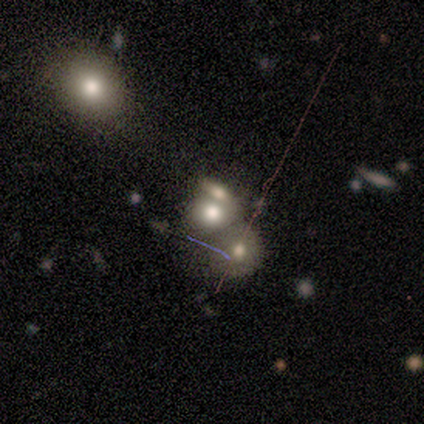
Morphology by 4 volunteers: smooth_or_featured: smooth (p=1.00)
how_rounded: in between (p=0.75) [alt: round p=0.25]
merging: merger (p=0.75) [alt: none p=0.25]